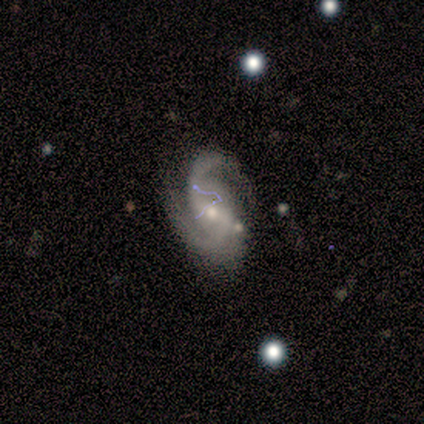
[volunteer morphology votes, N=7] Smooth or featured?
  - featured or disk: 86% *
  - star or artifact: 14%
  - smooth: 0%
Edge-on disk?
  - no: 100% *
  - yes: 0%
Bar?
  - weak: 67% *
  - no: 33%
  - strong: 0%
Spiral arms?
  - yes: 100% *
  - no: 0%
Spiral winding?
  - medium: 67% *
  - tight: 17%
  - loose: 17%
Spiral arm count?
  - 2: 100% *
  - 1: 0%
  - 3: 0%
  - 4: 0%
  - more than 4: 0%
  - can't tell: 0%
Bulge size?
  - moderate: 83% *
  - small: 17%
  - dominant: 0%
  - large: 0%
  - none: 0%
Merging?
  - none: 100% *
  - minor disturbance: 0%
  - major disturbance: 0%
  - merger: 0%